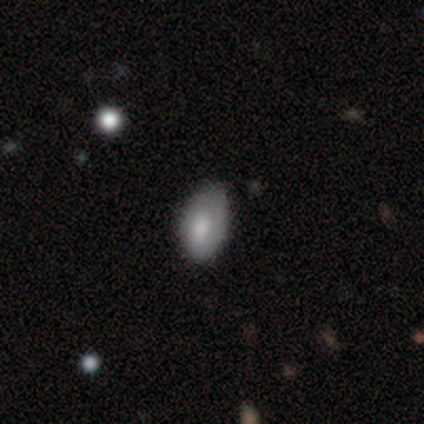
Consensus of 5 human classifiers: Overall: smooth (80%). How rounded: in between (100%). Merging: none (80%).